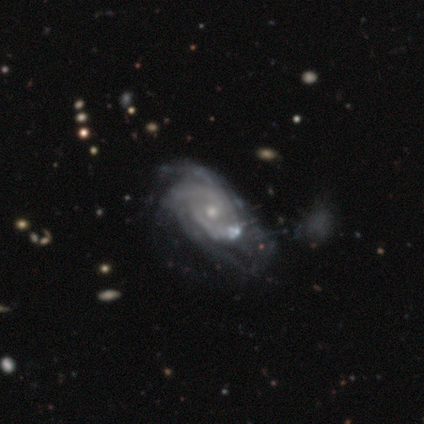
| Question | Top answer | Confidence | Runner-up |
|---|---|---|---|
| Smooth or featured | featured or disk | 95% | smooth (5%) |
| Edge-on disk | no | 100% | — |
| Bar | no | 71% | weak (21%) |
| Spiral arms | yes | 100% | — |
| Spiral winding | tight | 58% | medium (34%) |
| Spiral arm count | can't tell | 39% | 2 (29%) |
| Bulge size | small | 66% | moderate (29%) |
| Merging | none | 15% | minor disturbance (12%) |